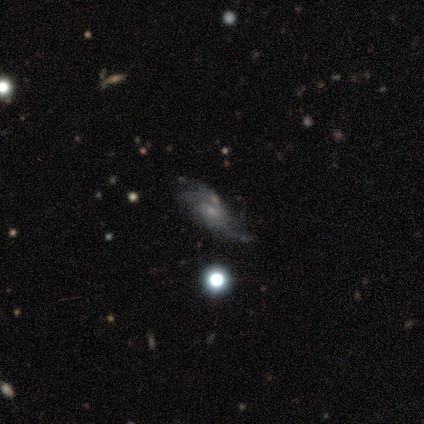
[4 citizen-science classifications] Smooth or featured?
  - featured or disk: 100% *
  - smooth: 0%
  - star or artifact: 0%
Edge-on disk?
  - no: 100% *
  - yes: 0%
Bar?
  - weak: 50% * (tied)
  - no: 50% * (tied)
  - strong: 0%
Spiral arms?
  - yes: 75% *
  - no: 25%
Spiral winding?
  - loose: 67% *
  - medium: 33%
  - tight: 0%
Spiral arm count?
  - 2: 33% * (tied)
  - 3: 33% * (tied)
  - can't tell: 33% * (tied)
  - 1: 0%
  - 4: 0%
  - more than 4: 0%
Bulge size?
  - small: 75% *
  - moderate: 25%
  - dominant: 0%
  - large: 0%
  - none: 0%
Merging?
  - major disturbance: 50% *
  - none: 25%
  - minor disturbance: 25%
  - merger: 0%